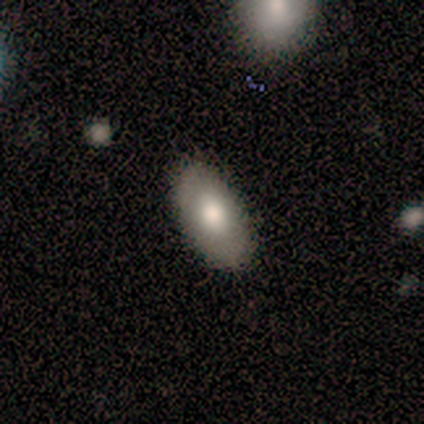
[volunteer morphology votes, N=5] smooth_or_featured: smooth (p=0.80) [alt: featured or disk p=0.20]
how_rounded: in between (p=1.00)
merging: none (p=0.80) [alt: merger p=0.20]